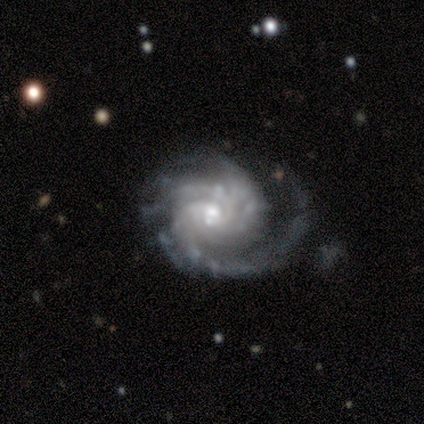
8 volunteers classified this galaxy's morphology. smooth_or_featured: featured or disk (p=1.00)
disk_edge_on: no (p=0.88) [alt: yes p=0.12]
bar: no (p=1.00)
has_spiral_arms: yes (p=1.00)
spiral_winding: tight (p=0.86) [alt: medium p=0.14]
spiral_arm_count: 3 (p=0.57) [alt: can't tell p=0.43]
bulge_size: moderate (p=0.43) [alt: small p=0.29]
merging: none (p=0.50) [alt: minor disturbance p=0.25]